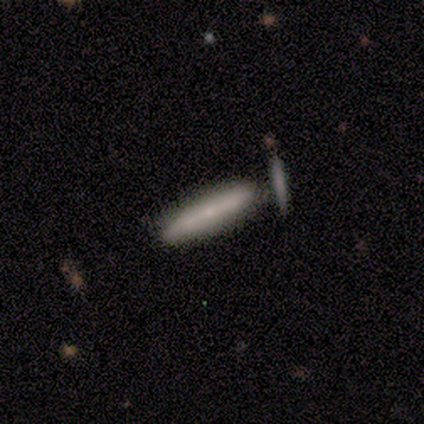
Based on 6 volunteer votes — This is possibly a smooth galaxy (50%, tied with featured or disk). How rounded: likely cigar-shaped (67%). Merging: possibly none (50%).